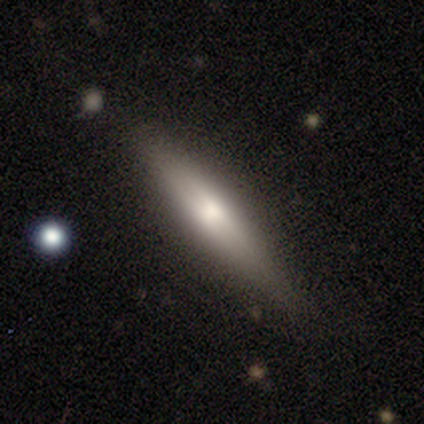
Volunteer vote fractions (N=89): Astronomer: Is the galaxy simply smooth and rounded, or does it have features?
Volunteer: featured or disk — 48% (runner-up: smooth, 45%).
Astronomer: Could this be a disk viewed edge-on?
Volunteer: yes — 88%.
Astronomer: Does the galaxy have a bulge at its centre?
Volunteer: rounded — 68%.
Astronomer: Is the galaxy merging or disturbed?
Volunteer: none — 83%.